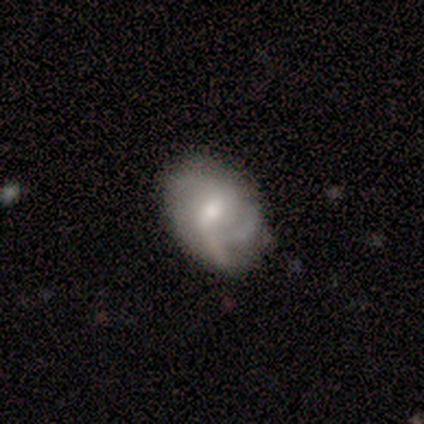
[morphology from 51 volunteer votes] featured or disk 55%, smooth 39%, star or artifact 6%. Down the decision tree: edge-on disk — no (93%); bar — weak (46%); spiral arms — yes (92%); spiral arm count — 2 (33%, tied with 3); spiral winding — loose (38%); bulge size — moderate (58%); merging — none (60%).